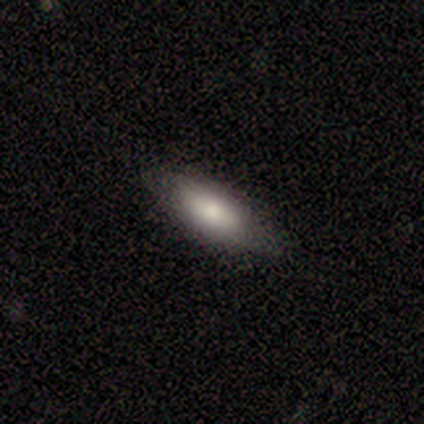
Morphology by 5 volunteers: This is likely a featured or disk galaxy (60%). It is clearly not viewed edge-on (100%). Bar: clearly no (100%). Spiral arm pattern: clearly no (100%). Central bulge: likely moderate (67%). Merging: possibly none (50%, tied with minor disturbance).